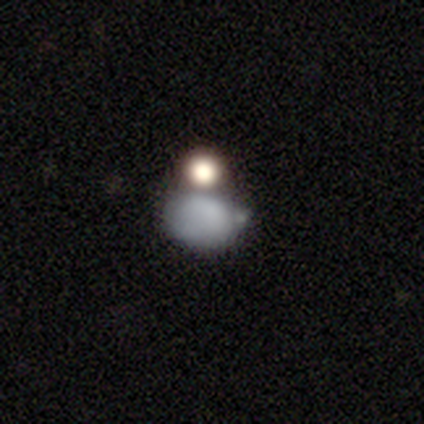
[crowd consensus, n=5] smooth-or-featured: smooth: 80% | featured or disk: 20% | star or artifact: 0%
  how-rounded: in between: 100% | round: 0% | cigar-shaped: 0%
  merging: merger: 60% | minor disturbance: 40% | none: 0% | major disturbance: 0%